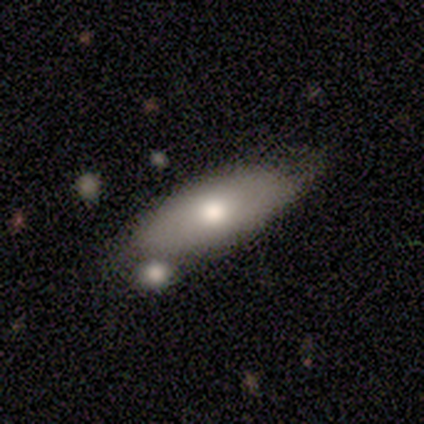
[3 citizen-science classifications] Smooth or featured? 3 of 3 (100%) said smooth. How rounded? 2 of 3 (67%) said in between. Merging? 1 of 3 (33%, tied with minor disturbance and merger) said none.